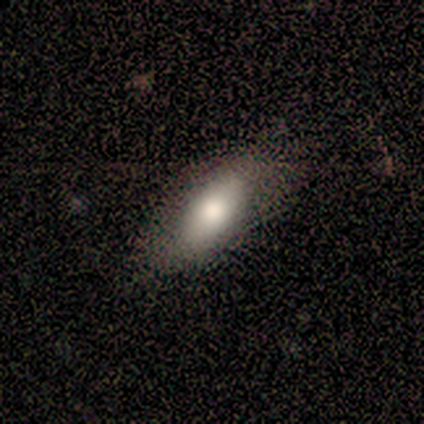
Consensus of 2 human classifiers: Smooth or featured? 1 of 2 (50%, tied with star or artifact) said smooth. How rounded? 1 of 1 (100%) said in between. Merging? 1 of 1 (100%) said none.